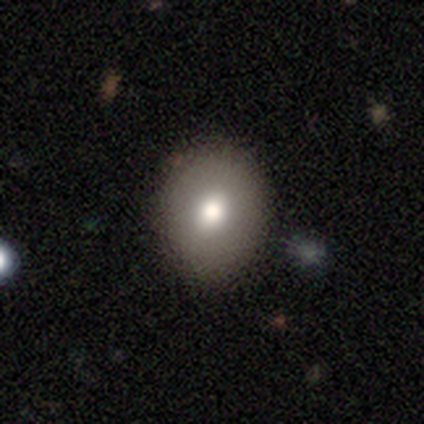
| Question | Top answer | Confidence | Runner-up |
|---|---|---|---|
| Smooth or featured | smooth | 76% | featured or disk (16%) |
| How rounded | round | 66% | in between (34%) |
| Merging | none | 83% | minor disturbance (9%) |